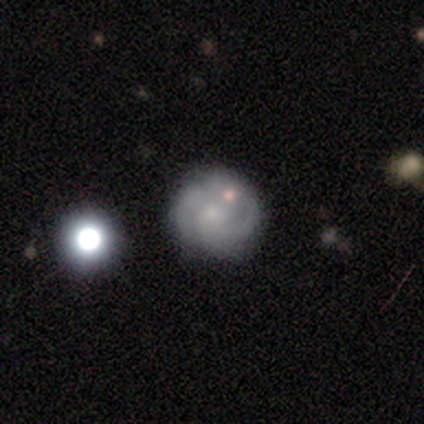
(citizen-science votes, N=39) smooth-or-featured: featured or disk: 62% | smooth: 31% | star or artifact: 8%
  disk-edge-on: no: 100% | yes: 0%
    bar: no: 79% | weak: 21% | strong: 0%
    has-spiral-arms: yes: 83% | no: 17%
      spiral-winding: tight: 55% | medium: 30% | loose: 15%
      spiral-arm-count: 2: 65% | can't tell: 20% | 1: 5% | 4: 5% | more than 4: 5% | 3: 0%
    bulge-size: small: 54% | moderate: 25% | none: 21% | dominant: 0% | large: 0%
  merging: none: 75% | minor disturbance: 11% | merger: 11% | major disturbance: 3%